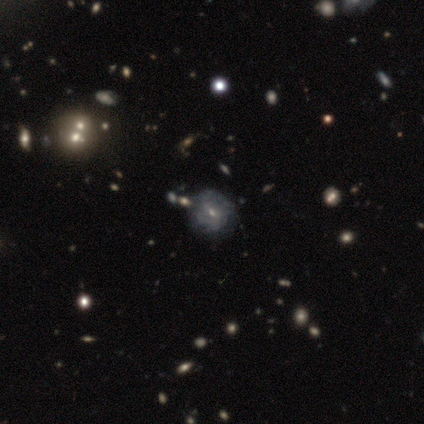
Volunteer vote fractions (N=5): Smooth or featured? 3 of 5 (60%) said smooth. How rounded? 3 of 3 (100%) said round. Merging? 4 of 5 (80%) said none.